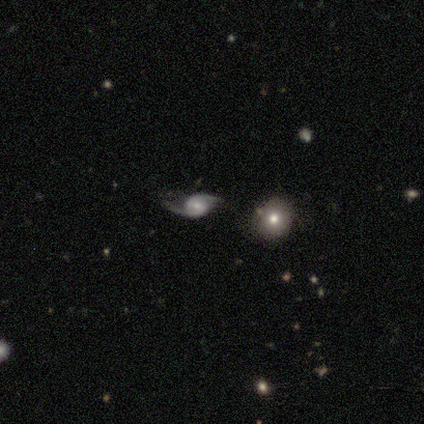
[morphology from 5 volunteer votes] Smooth or featured: featured or disk — 80% (star or artifact — 20%)
Edge-on disk: no — 100%
Bar: no — 100%
Spiral arms: yes — 75% (no — 25%)
Spiral winding: loose — 67% (tight — 33%)
Spiral arm count: 2 — 100%
Bulge size: small — 75% (dominant — 25%)
Merging: none — 75% (major disturbance — 25%)